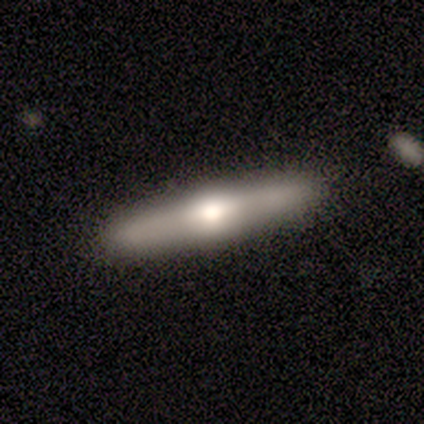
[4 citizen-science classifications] Volunteers were most divided on "edge-on bulge": rounded: 67%, boxy: 33%, none: 0%. More confident: edge-on disk — yes (100%); smooth or featured — featured or disk (75%); merging — none (75%).